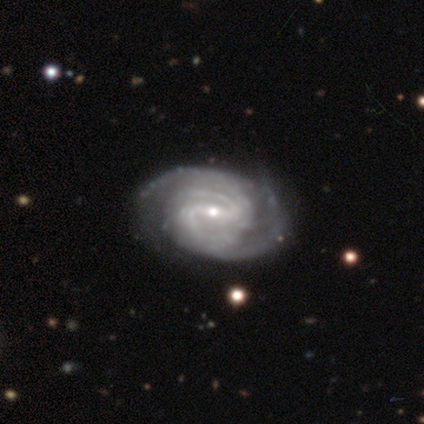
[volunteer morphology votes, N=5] type=featured or disk (100%); edge-on=no (80%); bar=strong (50%); spiral arms=yes (100%); winding=tight (75%); arm count=2 (25%, tied with 3, 4 and more than 4); bulge=small (75%); merging=none (60%).